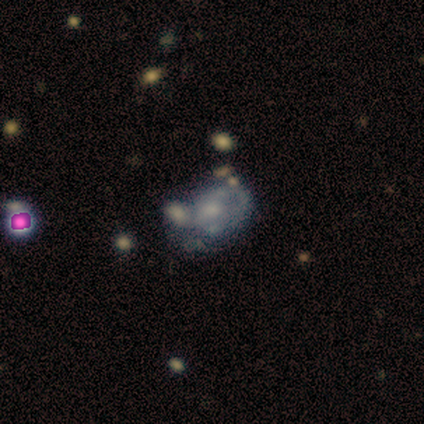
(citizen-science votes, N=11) Smooth or featured? 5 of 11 (45%, tied with featured or disk) said smooth. How rounded? 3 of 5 (60%) said in between. Merging? 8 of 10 (80%) said merger.